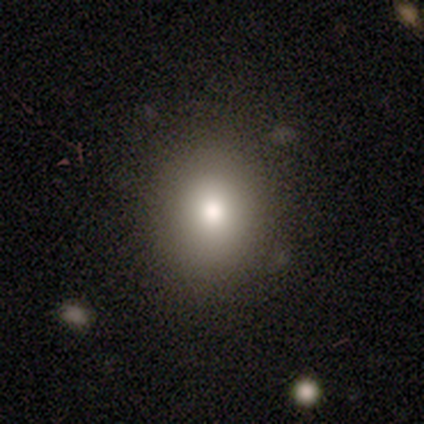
Smooth or featured?
  - smooth: 76% *
  - star or artifact: 12%
  - featured or disk: 11%
How rounded?
  - round: 75% *
  - in between: 25%
  - cigar-shaped: 0%
Merging?
  - none: 90% *
  - minor disturbance: 6%
  - major disturbance: 3%
  - merger: 1%